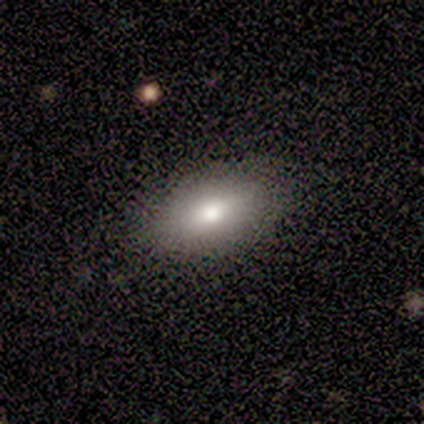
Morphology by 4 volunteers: Overall: smooth (75%). How rounded: in between (100%). Merging: none (100%).